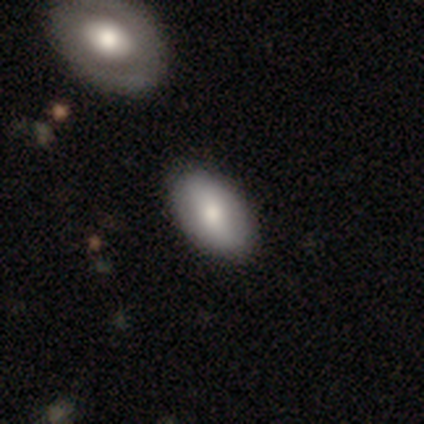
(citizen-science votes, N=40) Q: Smooth or featured?
A: smooth (75%); runner-up: featured or disk (22%)
Q: How rounded?
A: in between (97%); runner-up: round (3%)
Q: Merging?
A: none (64%); runner-up: merger (10%)